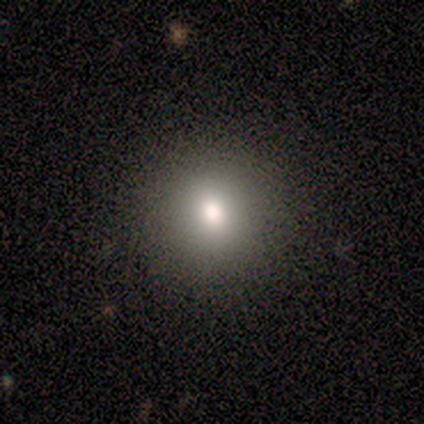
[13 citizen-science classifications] Morphology: type=smooth (92%); roundness=round (100%); merging=none (92%).